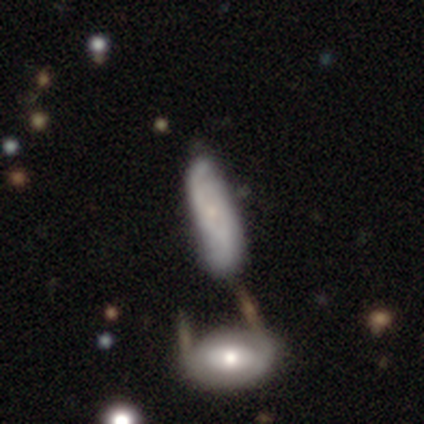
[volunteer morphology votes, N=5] Smooth or featured?
  - featured or disk: 60% *
  - smooth: 40%
  - star or artifact: 0%
Edge-on disk?
  - no: 67% *
  - yes: 33%
Bar?
  - no: 100% *
  - strong: 0%
  - weak: 0%
Spiral arms?
  - yes: 100% *
  - no: 0%
Spiral winding?
  - tight: 50% * (tied)
  - medium: 50% * (tied)
  - loose: 0%
Spiral arm count?
  - 2: 100% *
  - 1: 0%
  - 3: 0%
  - 4: 0%
  - more than 4: 0%
  - can't tell: 0%
Bulge size?
  - moderate: 50% * (tied)
  - small: 50% * (tied)
  - dominant: 0%
  - large: 0%
  - none: 0%
Merging?
  - minor disturbance: 40% * (tied)
  - merger: 40% * (tied)
  - none: 20%
  - major disturbance: 0%